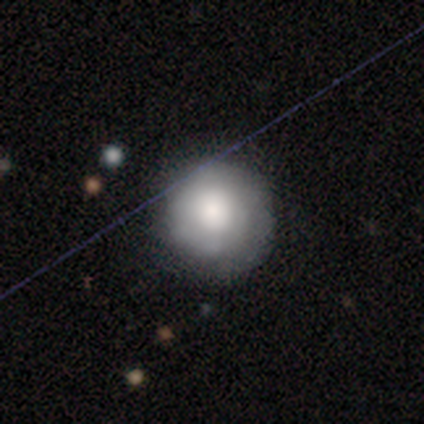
Smooth or featured? smooth (61%)
How rounded? round (91%)
Merging? none (70%)